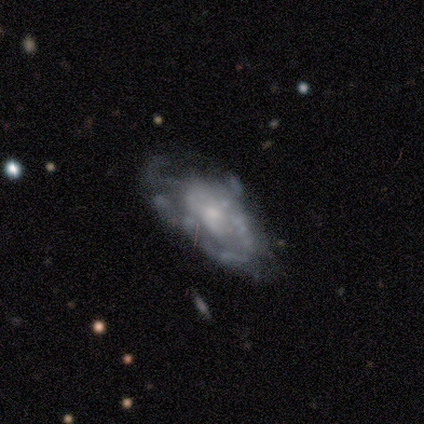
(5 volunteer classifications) This is clearly a featured or disk galaxy (80%). It is likely not viewed edge-on (75%). Bar: clearly no (100%). Spiral arm pattern: likely no (67%). Central bulge: clearly small (100%). Merging: marginally none (40%, tied with minor disturbance).